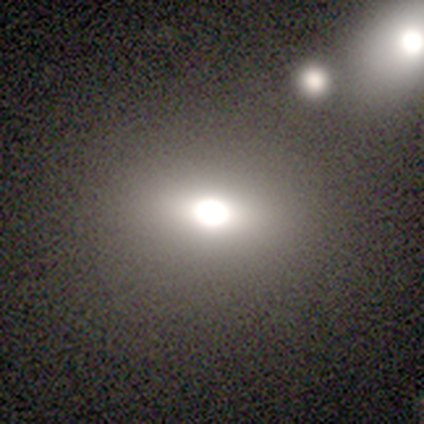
Smooth or featured: star or artifact — 45% (smooth — 36%)